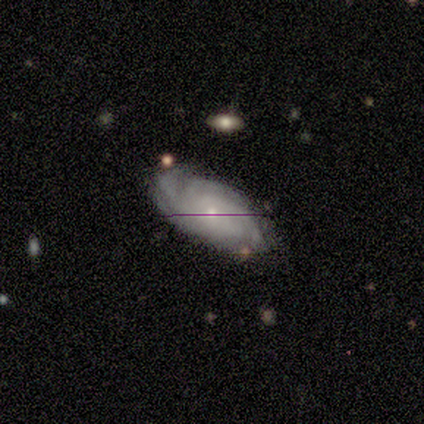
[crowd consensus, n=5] Smooth or featured? featured or disk (100%)
Edge-on disk? no (100%)
Bar? no (100%)
Spiral arms? yes (100%)
Spiral winding? tight (80%)
Spiral arm count? can't tell (60%)
Bulge size? small (60%)
Merging? none (80%)